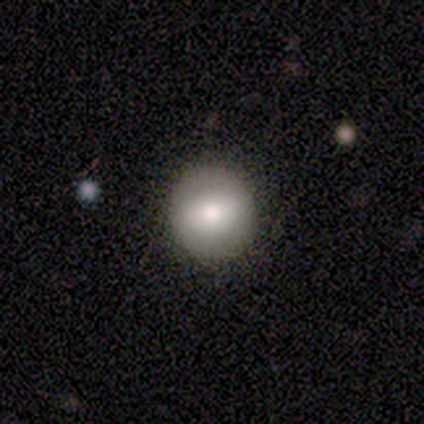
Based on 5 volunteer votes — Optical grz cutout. It shows a smooth galaxy with no disk features (80%) that is round (100%). Merging: none (100%).